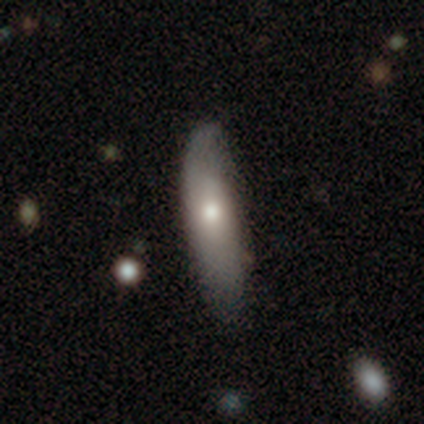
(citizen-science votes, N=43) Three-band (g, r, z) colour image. It shows a smooth galaxy with no disk features (67%) that is cigar-shaped (66%). Merging: none (62%).